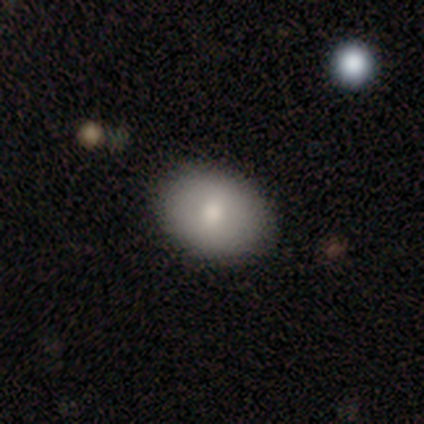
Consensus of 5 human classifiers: Q: Smooth or featured?
A: smooth (100%)
Q: How rounded?
A: in between (80%); runner-up: round (20%)
Q: Merging?
A: none (80%); runner-up: minor disturbance (20%)